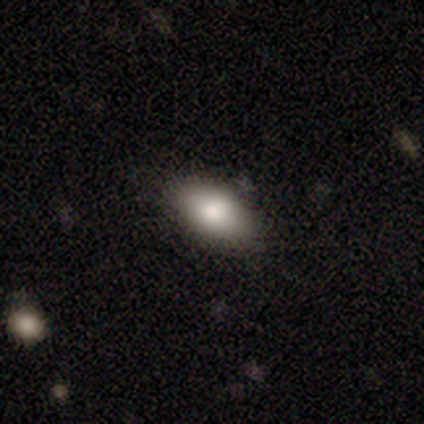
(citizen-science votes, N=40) Smooth or featured: smooth — 82% (featured or disk — 10%)
How rounded: in between — 97% (cigar-shaped — 3%)
Merging: none — 81% (minor disturbance — 19%)